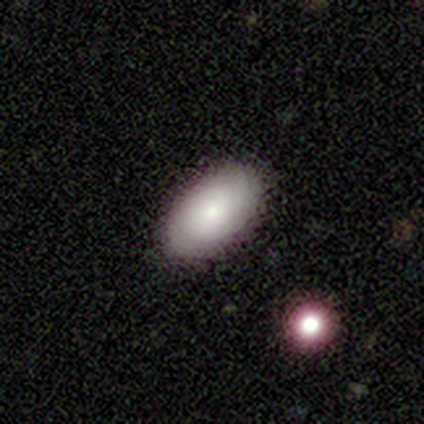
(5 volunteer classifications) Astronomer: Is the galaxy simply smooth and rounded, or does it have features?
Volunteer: smooth — 100%.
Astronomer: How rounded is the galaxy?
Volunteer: in between — 100%.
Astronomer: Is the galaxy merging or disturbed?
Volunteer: none — 80%.